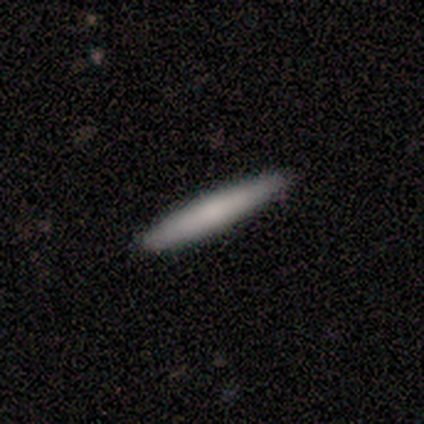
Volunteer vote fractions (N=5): Smooth or featured? smooth (80%)
How rounded? cigar-shaped (100%)
Merging? none (60%)